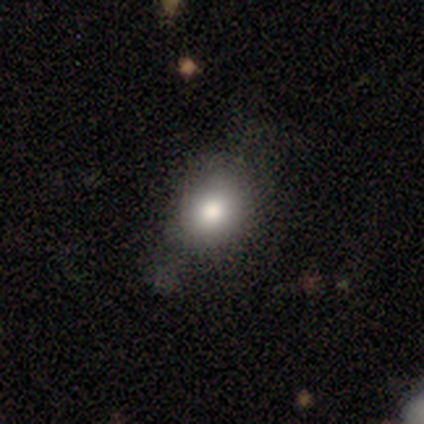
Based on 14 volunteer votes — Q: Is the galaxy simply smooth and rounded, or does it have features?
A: smooth — 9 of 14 (64%).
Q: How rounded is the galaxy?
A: round — 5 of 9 (56%).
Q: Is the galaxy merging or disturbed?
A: none — 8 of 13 (62%).